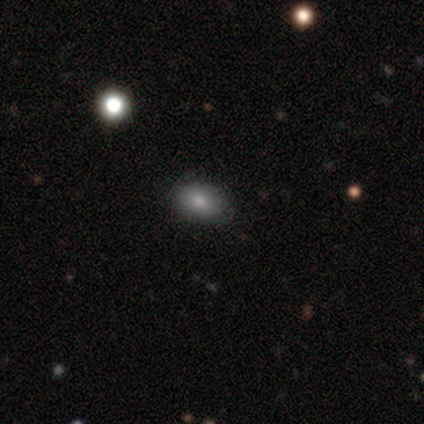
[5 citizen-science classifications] Smooth or featured?
  - smooth: 100% *
  - featured or disk: 0%
  - star or artifact: 0%
How rounded?
  - in between: 100% *
  - round: 0%
  - cigar-shaped: 0%
Merging?
  - none: 60% *
  - minor disturbance: 40%
  - major disturbance: 0%
  - merger: 0%